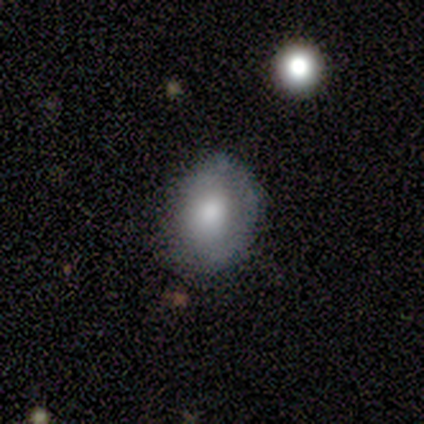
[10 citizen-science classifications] Overall: smooth (90%). How rounded: in between (56%; round 44%). Merging: none (90%).